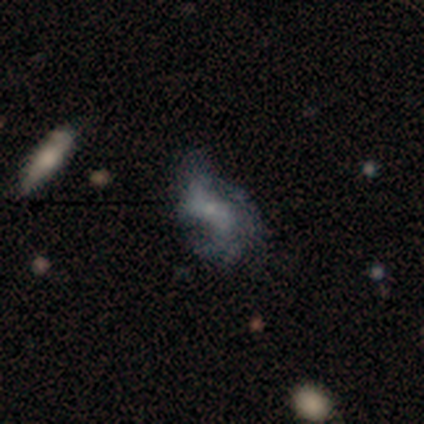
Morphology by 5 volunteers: Smooth or featured?
  - featured or disk: 100% *
  - smooth: 0%
  - star or artifact: 0%
Edge-on disk?
  - no: 80% *
  - yes: 20%
Bar?
  - no: 75% *
  - weak: 25%
  - strong: 0%
Spiral arms?
  - yes: 75% *
  - no: 25%
Spiral winding?
  - loose: 100% *
  - tight: 0%
  - medium: 0%
Spiral arm count?
  - 2: 100% *
  - 1: 0%
  - 3: 0%
  - 4: 0%
  - more than 4: 0%
  - can't tell: 0%
Bulge size?
  - small: 75% *
  - none: 25%
  - dominant: 0%
  - large: 0%
  - moderate: 0%
Merging?
  - none: 80% *
  - major disturbance: 20%
  - minor disturbance: 0%
  - merger: 0%